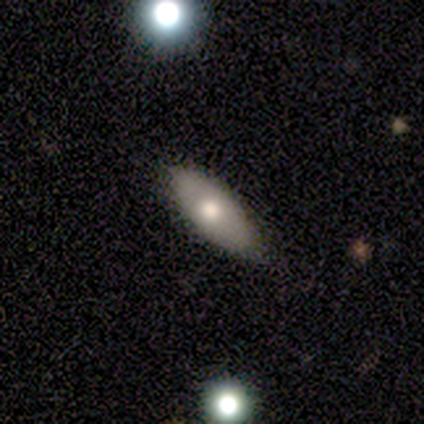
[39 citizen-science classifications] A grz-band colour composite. It shows a smooth galaxy with no disk features (62%) that is in between round and cigar-shaped (79%). Merging: none (78%).